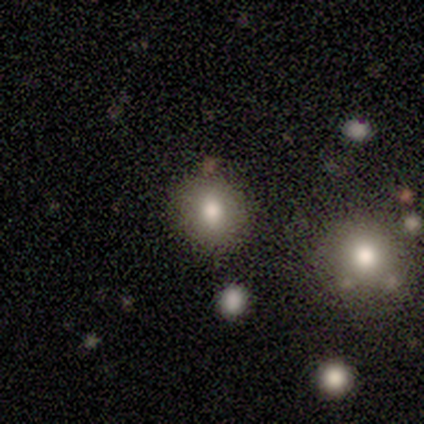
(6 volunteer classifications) Smooth or featured?
  - smooth: 50% *
  - star or artifact: 33%
  - featured or disk: 17%
How rounded?
  - round: 100% *
  - in between: 0%
  - cigar-shaped: 0%
Merging?
  - none: 75% *
  - merger: 25%
  - minor disturbance: 0%
  - major disturbance: 0%